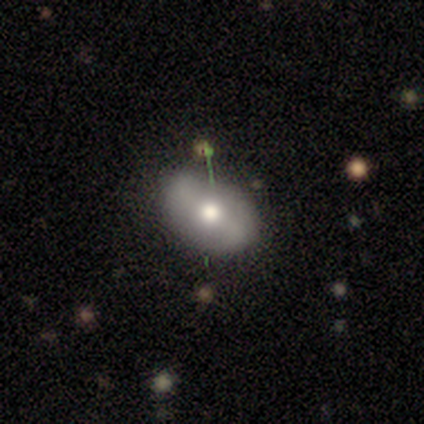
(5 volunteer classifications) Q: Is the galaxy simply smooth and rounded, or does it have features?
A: smooth — 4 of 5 (80%).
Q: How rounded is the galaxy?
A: in between — 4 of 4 (100%).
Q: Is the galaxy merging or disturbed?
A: none — 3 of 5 (60%).